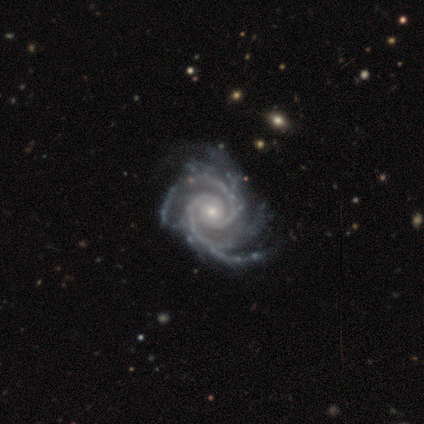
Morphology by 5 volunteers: Smooth or featured? 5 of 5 (100%) said featured or disk. Edge-on disk? 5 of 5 (100%) said no. Bar? 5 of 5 (100%) said no. Spiral arms? 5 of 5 (100%) said yes. Spiral winding? 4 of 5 (80%) said tight. Spiral arm count? 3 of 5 (60%) said 2. Bulge size? 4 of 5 (80%) said small. Merging? 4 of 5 (80%) said none.